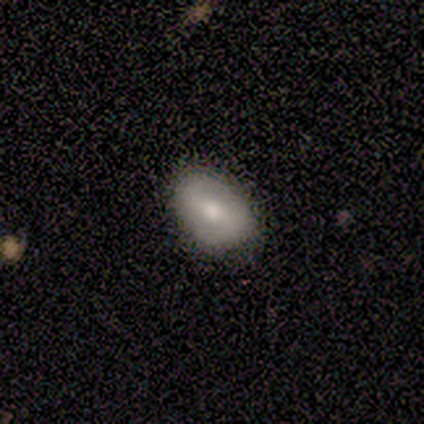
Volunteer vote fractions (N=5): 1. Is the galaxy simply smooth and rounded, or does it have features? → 60% smooth, 40% featured or disk, 0% star or artifact.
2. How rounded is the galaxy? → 100% in between, 0% round, 0% cigar-shaped.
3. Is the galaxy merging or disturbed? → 60% none, 40% minor disturbance, 0% major disturbance, 0% merger.